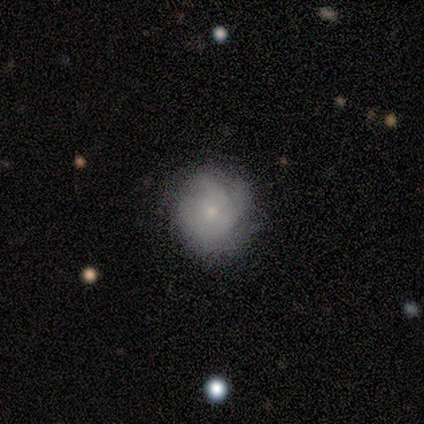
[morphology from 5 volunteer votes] smooth-or-featured: smooth: 60% | featured or disk: 40% | star or artifact: 0%
  how-rounded: round: 67% | in between: 33% | cigar-shaped: 0%
  merging: none: 60% | minor disturbance: 20% | major disturbance: 20% | merger: 0%